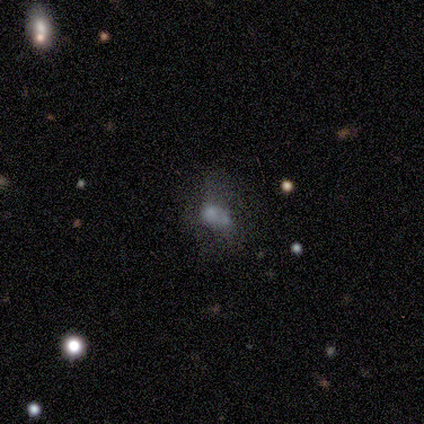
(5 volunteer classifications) Smooth or featured? smooth (80%)
How rounded? in between (75%)
Merging? merger (50%)